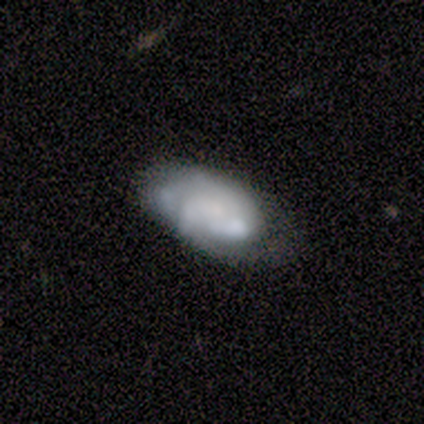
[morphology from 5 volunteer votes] Smooth or featured?
  - smooth: 80% *
  - featured or disk: 20%
  - star or artifact: 0%
How rounded?
  - in between: 100% *
  - round: 0%
  - cigar-shaped: 0%
Merging?
  - none: 60% *
  - minor disturbance: 40%
  - major disturbance: 0%
  - merger: 0%